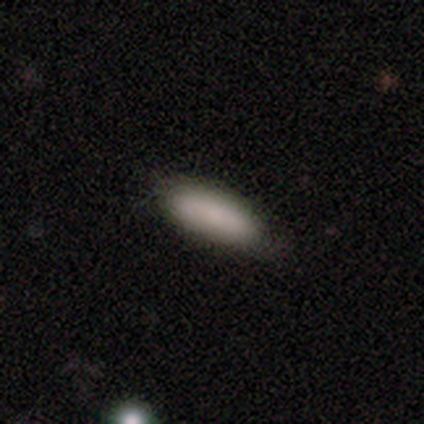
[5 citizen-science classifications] A smooth galaxy with no disk features (100%) that is in between round and cigar-shaped (100%).

Vote fractions:
- Smooth or featured? smooth: 100% / featured or disk: 0% / star or artifact: 0%
- How rounded? in between: 100% / round: 0% / cigar-shaped: 0%
- Merging? none: 100% / minor disturbance: 0% / major disturbance: 0% / merger: 0%